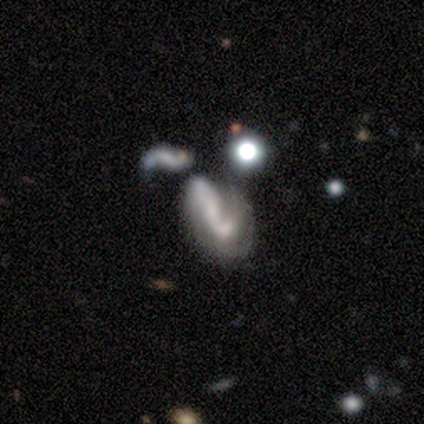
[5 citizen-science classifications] Overall: featured or disk (60%; smooth 20%). Edge-on disk: no (100%). Bar: weak (67%; no 33%). Spiral arms: yes (67%; no 33%). Spiral arm count: 2 (100%). Spiral winding: loose (100%). Bulge size: small (67%; none 33%). Merging: minor disturbance (50%; major disturbance 25%).